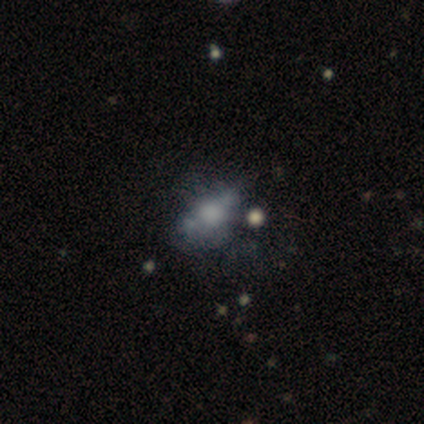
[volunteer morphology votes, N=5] Overall: featured or disk (80%). Edge-on disk: no (75%). Bar: no (100%). Spiral arms: no (100%). Bulge size: none (67%; small 33%). Merging: merger (60%; minor disturbance 20%).